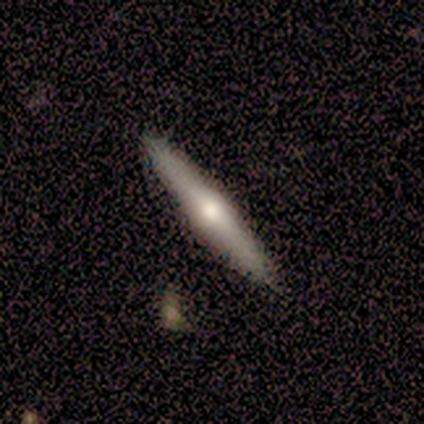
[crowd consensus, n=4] Smooth or featured: featured or disk — 75% (smooth — 25%)
Edge-on disk: yes — 100%
Edge-on bulge: rounded — 100%
Merging: none — 100%